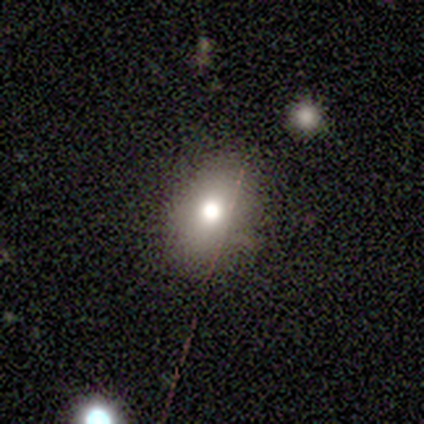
smooth_or_featured: smooth (p=0.40) [tied with: featured or disk p=0.40]
how_rounded: in between (p=1.00)
merging: none (p=0.75) [alt: minor disturbance p=0.25]